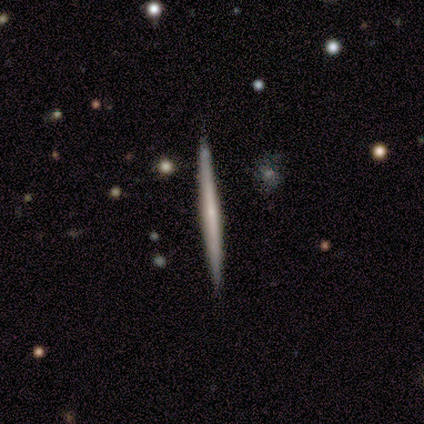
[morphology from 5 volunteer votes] Smooth or featured?
  - featured or disk: 60% *
  - smooth: 40%
  - star or artifact: 0%
Edge-on disk?
  - yes: 100% *
  - no: 0%
Edge-on bulge?
  - rounded: 67% *
  - none: 33%
  - boxy: 0%
Merging?
  - none: 100% *
  - minor disturbance: 0%
  - major disturbance: 0%
  - merger: 0%